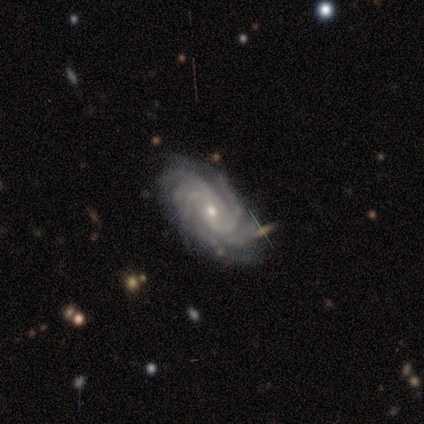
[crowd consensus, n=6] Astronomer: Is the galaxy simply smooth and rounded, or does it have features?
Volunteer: featured or disk — 100%.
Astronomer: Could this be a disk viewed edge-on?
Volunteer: no — 100%.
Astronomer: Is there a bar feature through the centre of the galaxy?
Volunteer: no — 83%.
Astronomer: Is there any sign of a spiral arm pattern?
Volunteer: yes — 100%.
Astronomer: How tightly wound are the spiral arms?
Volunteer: tight — 67%.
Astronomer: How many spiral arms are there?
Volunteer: more than 4 — 50% (runner-up: 4, 33%).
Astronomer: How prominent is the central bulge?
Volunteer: moderate — 67%.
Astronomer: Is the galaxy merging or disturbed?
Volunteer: none — 100%.